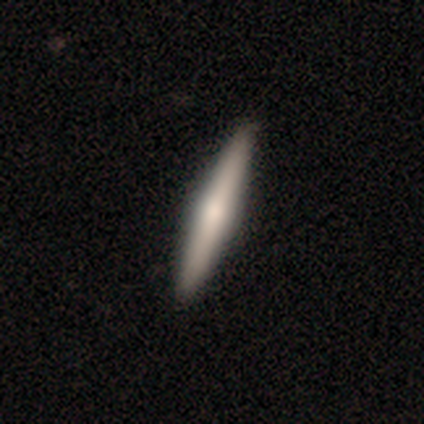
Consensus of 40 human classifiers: Q: Smooth or featured?
A: featured or disk (72%); runner-up: smooth (28%)
Q: Edge-on disk?
A: yes (100%)
Q: Edge-on bulge?
A: rounded (69%); runner-up: none (17%)
Q: Merging?
A: none (57%); runner-up: minor disturbance (2%)